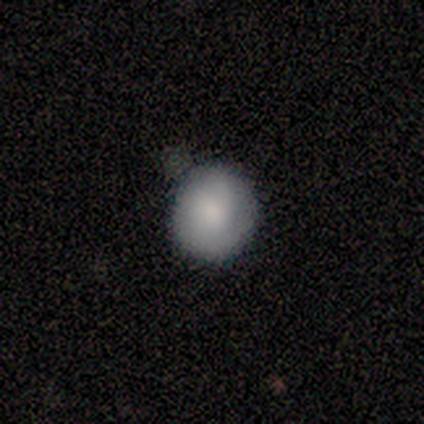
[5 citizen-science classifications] Volunteers were most divided on "smooth or featured": smooth: 80%, featured or disk: 20%, star or artifact: 0%. More confident: how rounded — round (100%); merging — none (80%).